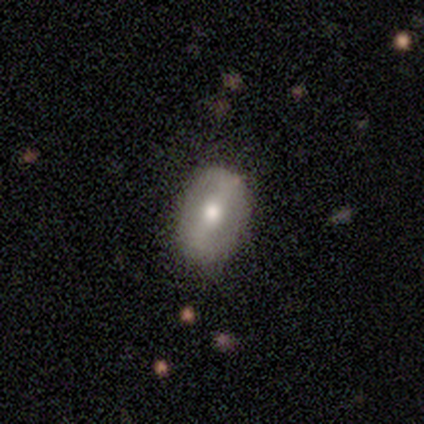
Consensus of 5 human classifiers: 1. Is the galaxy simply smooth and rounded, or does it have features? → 80% featured or disk, 20% smooth, 0% star or artifact.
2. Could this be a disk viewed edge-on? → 100% no, 0% yes.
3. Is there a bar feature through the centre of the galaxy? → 75% strong, 25% no, 0% weak.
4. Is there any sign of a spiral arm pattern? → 75% no, 25% yes.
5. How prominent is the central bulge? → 50% moderate (tied), 50% small (tied), 0% dominant, 0% large, 0% none.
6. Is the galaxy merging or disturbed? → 80% none, 20% minor disturbance, 0% major disturbance, 0% merger.